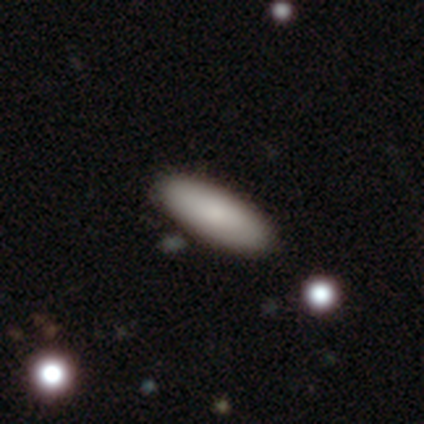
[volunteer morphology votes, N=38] Q: Smooth or featured?
A: smooth (89%); runner-up: featured or disk (11%)
Q: How rounded?
A: in between (59%); runner-up: cigar-shaped (41%)
Q: Merging?
A: none (89%); runner-up: minor disturbance (8%)